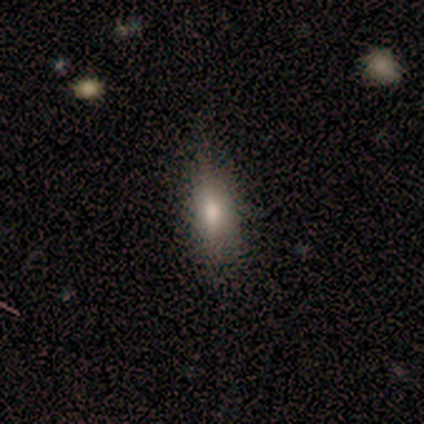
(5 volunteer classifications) Smooth or featured: smooth — 80% (star or artifact — 20%)
How rounded: in between — 50% (tied with cigar-shaped — 50%)
Merging: none — 100%